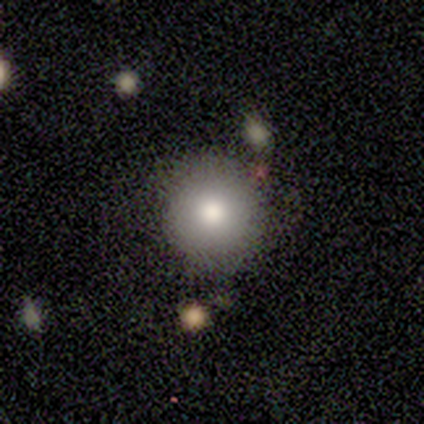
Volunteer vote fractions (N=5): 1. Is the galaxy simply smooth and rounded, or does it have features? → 80% smooth, 20% star or artifact, 0% featured or disk.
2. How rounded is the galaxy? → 100% round, 0% in between, 0% cigar-shaped.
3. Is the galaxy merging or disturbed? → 100% none, 0% minor disturbance, 0% major disturbance, 0% merger.